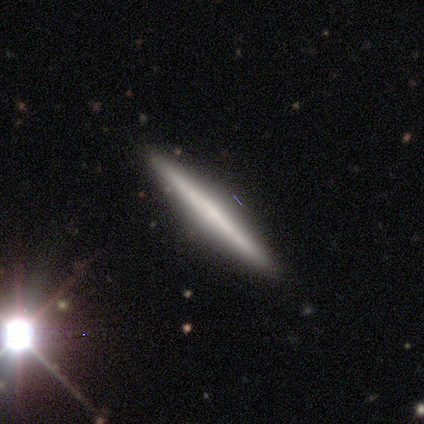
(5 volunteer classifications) This appears to be a smooth galaxy with no disk features (60%) that is cigar-shaped (100%). Merging: none (100%).